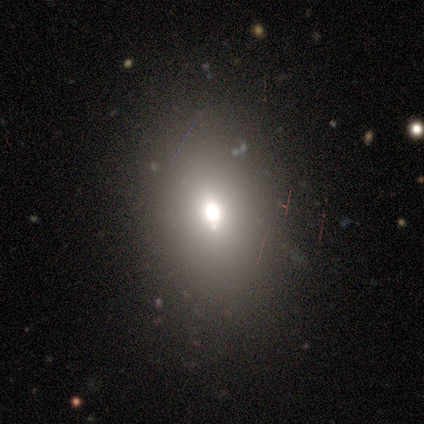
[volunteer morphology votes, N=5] Smooth or featured: star or artifact — 80% (featured or disk — 20%)